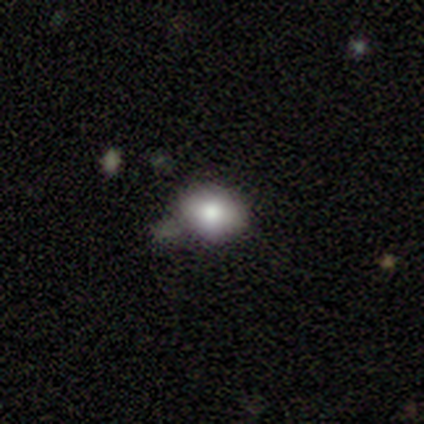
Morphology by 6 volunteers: A smooth galaxy with no disk features (67%) that is in between round and cigar-shaped (75%).

Vote fractions:
- Smooth or featured? smooth: 67% / featured or disk: 33% / star or artifact: 0%
- How rounded? in between: 75% / round: 25% / cigar-shaped: 0%
- Merging? none: 50% / minor disturbance: 33% / major disturbance: 17% / merger: 0%